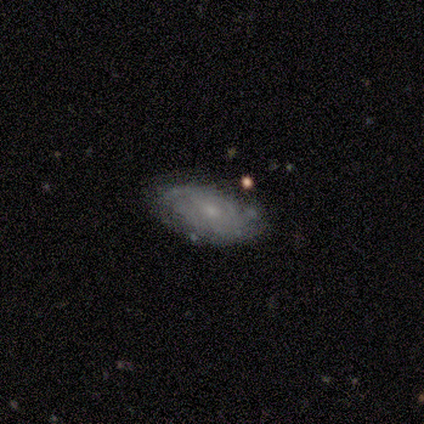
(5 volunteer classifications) A featured or disk galaxy (100%) with no bar (75%), 2 (50%) medium (50%) spiral arms (100%) and a small central bulge (50%).

Vote fractions:
- Smooth or featured? featured or disk: 100% / smooth: 0% / star or artifact: 0%
- Edge-on disk? no: 80% / yes: 20%
- Bar? no: 75% / weak: 25% / strong: 0%
- Spiral arms? yes: 100% / no: 0%
- Spiral winding? medium: 50% / tight: 25% / loose: 25%
- Spiral arm count? 2: 50% / 3: 25% / 4: 25% / 1: 0% / more than 4: 0% / can't tell: 0%
- Bulge size? small: 50% / large: 25% / none: 25% / dominant: 0% / moderate: 0%
- Merging? none: 60% / minor disturbance: 20% / major disturbance: 20% / merger: 0%